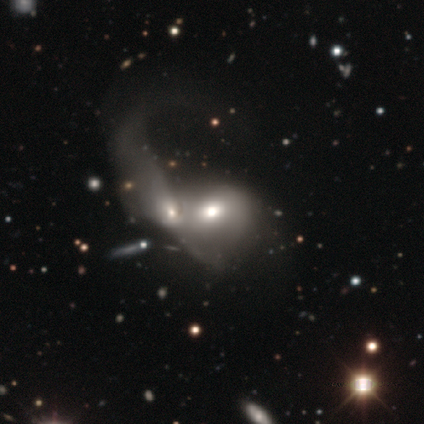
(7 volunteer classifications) A smooth galaxy with no disk features (57%) that is in between round and cigar-shaped (75%).

Vote fractions:
- Smooth or featured? smooth: 57% / featured or disk: 43% / star or artifact: 0%
- How rounded? in between: 75% / round: 25% / cigar-shaped: 0%
- Merging? merger: 86% / major disturbance: 14% / none: 0% / minor disturbance: 0%